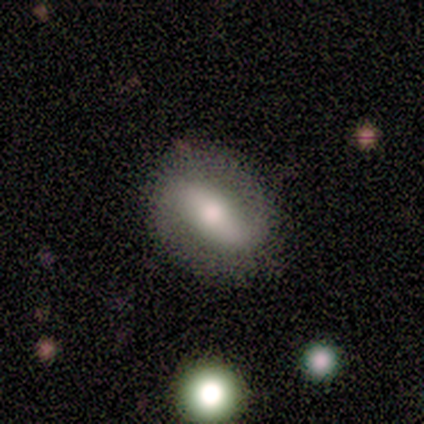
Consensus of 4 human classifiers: This is likely a featured or disk galaxy (75%). It is likely not viewed edge-on (67%). Bar: possibly strong (50%, tied with no). Spiral arm pattern: possibly yes (50%, tied with no). Spiral arm count: clearly 2 (100%). Spiral winding: clearly loose (100%). Central bulge: clearly moderate (100%). Merging: likely none (67%).